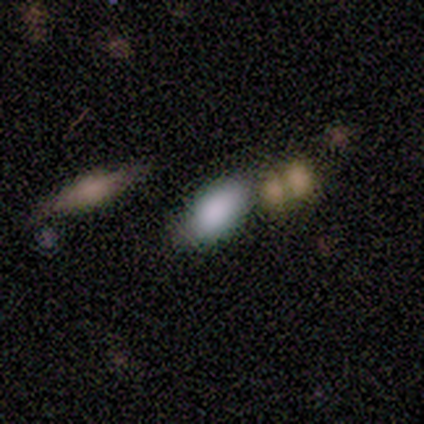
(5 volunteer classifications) This appears to be a smooth galaxy with no disk features (100%) that is in between round and cigar-shaped (80%). Merging: none (40%, tied with minor disturbance).